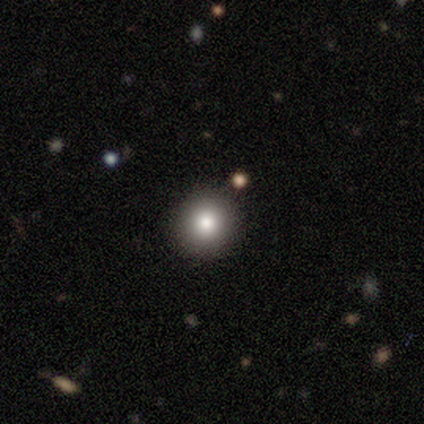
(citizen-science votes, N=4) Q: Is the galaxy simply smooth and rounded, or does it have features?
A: smooth — 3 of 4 (75%).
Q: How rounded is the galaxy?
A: round — 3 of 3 (100%).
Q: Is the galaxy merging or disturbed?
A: none — 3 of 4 (75%).